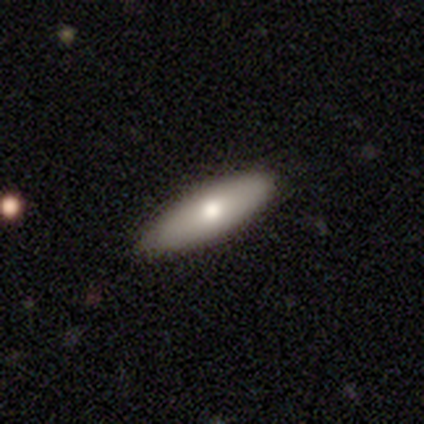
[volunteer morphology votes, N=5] Smooth or featured: smooth — 100%
How rounded: cigar-shaped — 80% (in between — 20%)
Merging: none — 100%